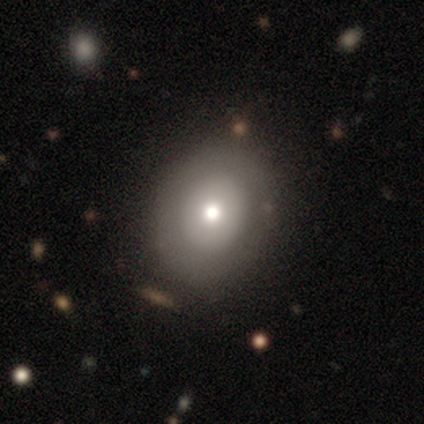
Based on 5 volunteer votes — Overall: smooth (60%; star or artifact 40%). How rounded: in between (67%; round 33%). Merging: none (67%; minor disturbance 33%).